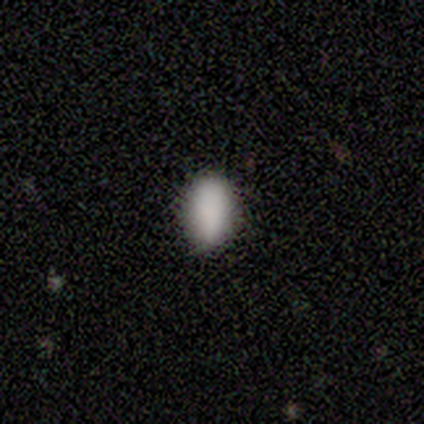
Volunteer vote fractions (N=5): smooth 100%, featured or disk 0%, star or artifact 0%. Down the decision tree: how rounded — in between (100%); merging — none (80%).